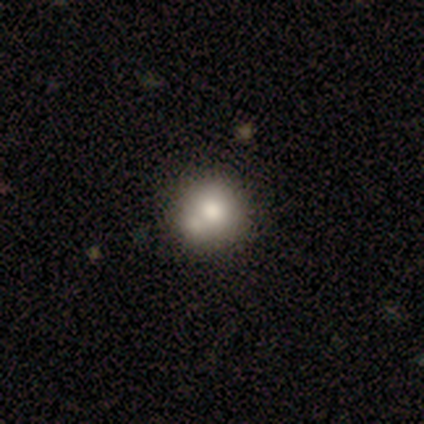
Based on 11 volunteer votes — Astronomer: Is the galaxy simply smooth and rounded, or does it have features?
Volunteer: smooth — 55%.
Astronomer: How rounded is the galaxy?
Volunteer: round — 100%.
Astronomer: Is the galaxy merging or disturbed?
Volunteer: none — 56% (runner-up: merger, 44%).